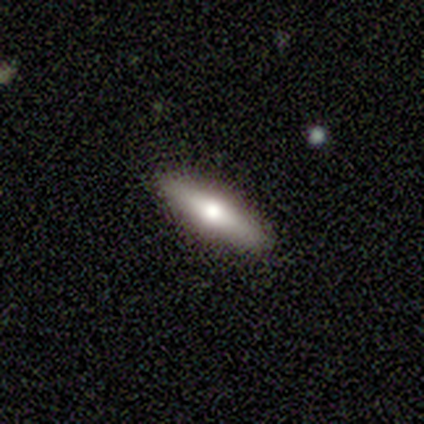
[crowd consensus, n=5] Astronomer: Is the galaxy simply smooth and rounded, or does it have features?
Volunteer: smooth — 80%.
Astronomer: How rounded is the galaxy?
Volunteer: cigar-shaped — 75%.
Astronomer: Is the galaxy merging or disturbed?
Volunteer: none — 100%.